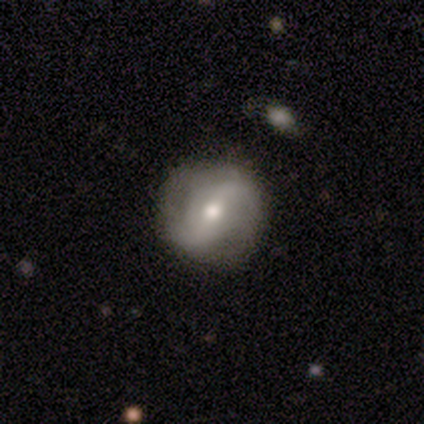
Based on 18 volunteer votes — Q: Smooth or featured?
A: featured or disk (72%); runner-up: smooth (28%)
Q: Edge-on disk?
A: no (100%)
Q: Bar?
A: strong (38%); runner-up: weak (31%)
Q: Spiral arms?
A: yes (85%); runner-up: no (15%)
Q: Spiral winding?
A: loose (73%); runner-up: tight (18%)
Q: Spiral arm count?
A: 2 (73%); runner-up: can't tell (18%)
Q: Bulge size?
A: moderate (85%); runner-up: small (15%)
Q: Merging?
A: none (83%); runner-up: major disturbance (11%)